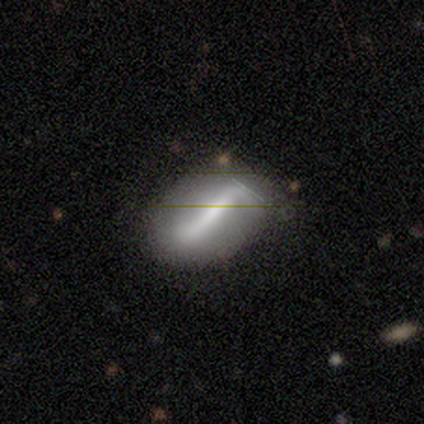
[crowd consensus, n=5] smooth_or_featured: smooth (p=0.40) [tied with: featured or disk p=0.40]
how_rounded: in between (p=1.00)
merging: none (p=0.50) [tied with: minor disturbance p=0.50]